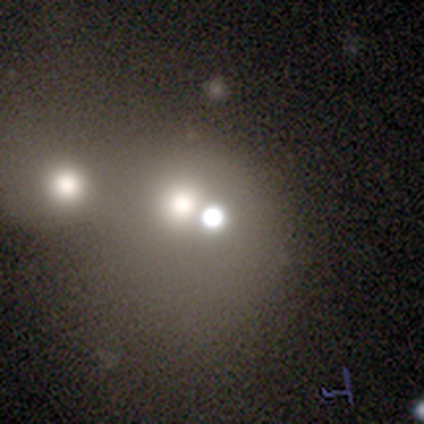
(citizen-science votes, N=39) Smooth or featured: star or artifact — 41% (smooth — 33%)